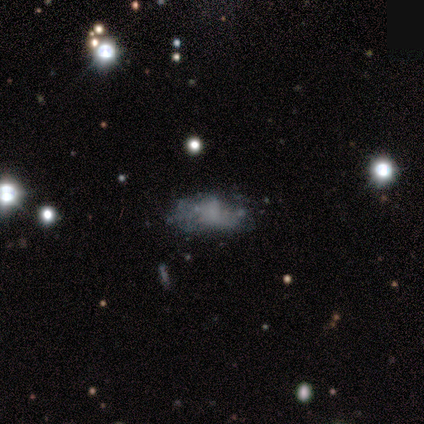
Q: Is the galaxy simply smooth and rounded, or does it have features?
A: featured or disk — 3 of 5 (60%).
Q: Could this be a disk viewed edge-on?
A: no — 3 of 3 (100%).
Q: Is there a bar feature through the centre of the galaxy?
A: no — 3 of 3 (100%).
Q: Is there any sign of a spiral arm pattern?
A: no — 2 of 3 (67%).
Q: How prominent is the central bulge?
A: none — 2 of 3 (67%).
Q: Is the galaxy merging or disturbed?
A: none — 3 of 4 (75%).